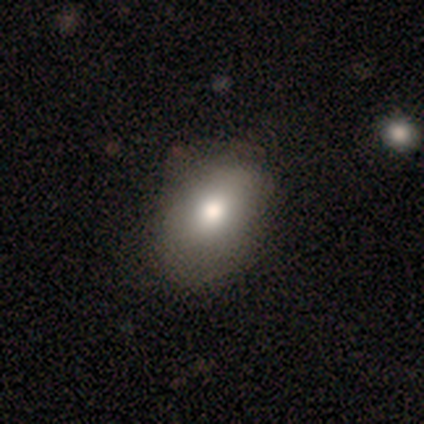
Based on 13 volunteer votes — smooth-or-featured: smooth: 69% | star or artifact: 23% | featured or disk: 8%
  how-rounded: in between: 100% | round: 0% | cigar-shaped: 0%
  merging: none: 80% | minor disturbance: 20% | major disturbance: 0% | merger: 0%